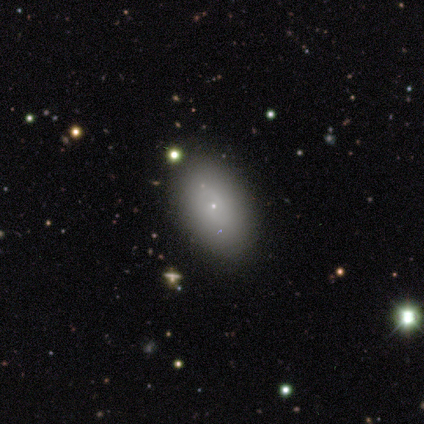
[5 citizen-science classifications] Smooth or featured? smooth (100%)
How rounded? in between (100%)
Merging? none (80%)